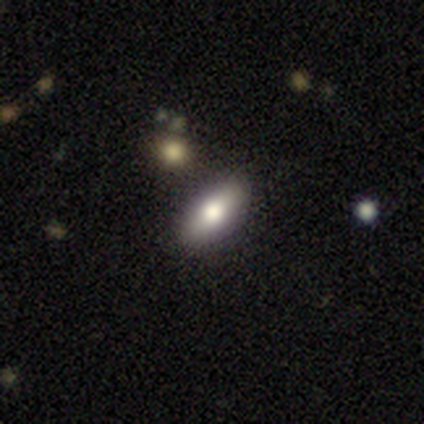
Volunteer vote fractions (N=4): Smooth or featured? 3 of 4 (75%) said smooth. How rounded? 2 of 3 (67%) said in between. Merging? 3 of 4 (75%) said none.